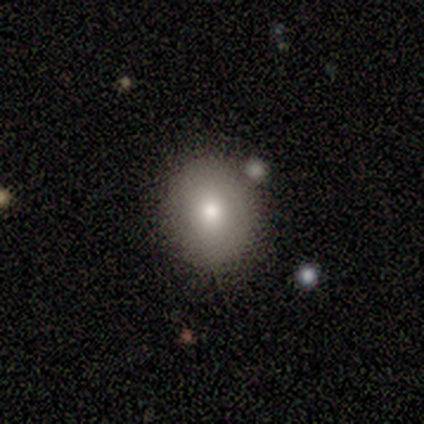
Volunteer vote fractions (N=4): A smooth galaxy with no disk features (75%) that is round (100%). Merging: none (100%).